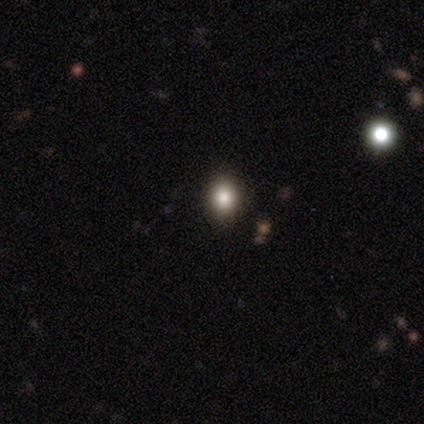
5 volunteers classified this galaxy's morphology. A smooth galaxy with no disk features (80%) that is in between round and cigar-shaped (75%).

Vote fractions:
- Smooth or featured? smooth: 80% / featured or disk: 20% / star or artifact: 0%
- How rounded? in between: 75% / round: 25% / cigar-shaped: 0%
- Merging? none: 100% / minor disturbance: 0% / major disturbance: 0% / merger: 0%